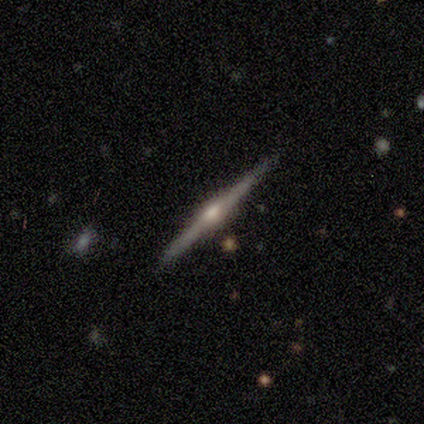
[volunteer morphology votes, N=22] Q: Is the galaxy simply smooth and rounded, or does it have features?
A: featured or disk — 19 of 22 (86%).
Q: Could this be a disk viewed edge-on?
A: yes — 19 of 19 (100%).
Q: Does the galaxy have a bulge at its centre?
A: rounded — 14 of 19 (74%).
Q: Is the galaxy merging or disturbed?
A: none — 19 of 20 (95%).